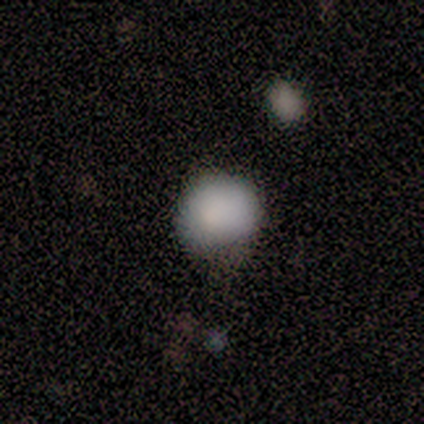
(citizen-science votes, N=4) Morphology: type=smooth (100%); roundness=round (75%); merging=none (50%, tied with minor disturbance).